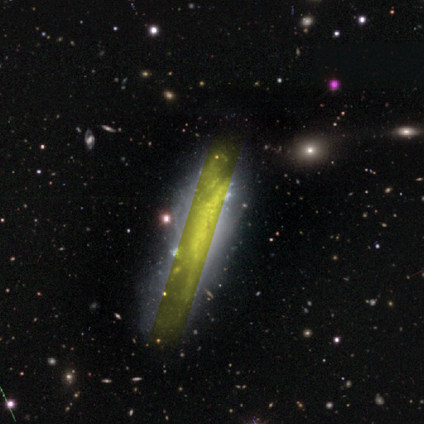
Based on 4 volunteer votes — Morphology: type=smooth (50%); roundness=cigar-shaped (100%); merging=none (100%).